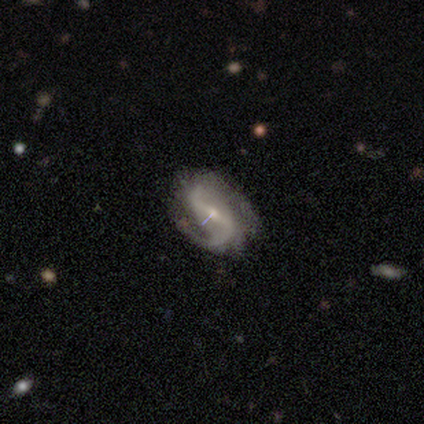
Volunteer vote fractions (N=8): Q: Smooth or featured?
A: featured or disk (88%); runner-up: smooth (12%)
Q: Edge-on disk?
A: no (100%)
Q: Bar?
A: weak (57%); runner-up: strong (43%)
Q: Spiral arms?
A: yes (100%)
Q: Spiral winding?
A: loose (71%); runner-up: tight (14%)
Q: Spiral arm count?
A: 2 (100%)
Q: Bulge size?
A: small (57%); runner-up: moderate (43%)
Q: Merging?
A: none (75%); runner-up: minor disturbance (12%)